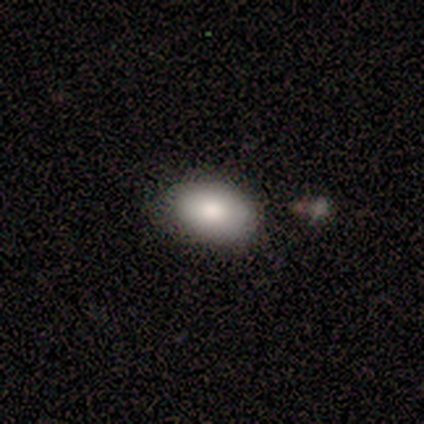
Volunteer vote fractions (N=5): Volunteers were most divided on "merging": none: 50%, minor disturbance: 25%, major disturbance: 25%, merger: 0%. More confident: smooth or featured — smooth (80%); how rounded — in between (75%).